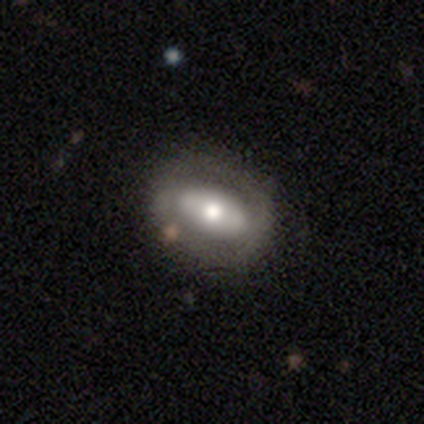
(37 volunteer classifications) Smooth or featured? 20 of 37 (54%) said featured or disk. Edge-on disk? 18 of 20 (90%) said no. Bar? 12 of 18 (67%) said no. Spiral arms? 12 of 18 (67%) said no. Bulge size? 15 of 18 (83%) said moderate. Merging? 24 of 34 (71%) said none.